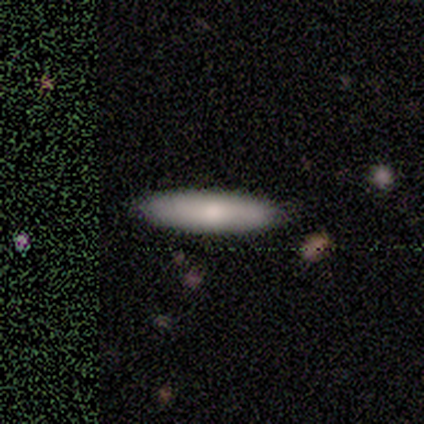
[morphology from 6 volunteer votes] This is clearly a smooth galaxy (100%). How rounded: likely cigar-shaped (67%). Merging: clearly none (100%).